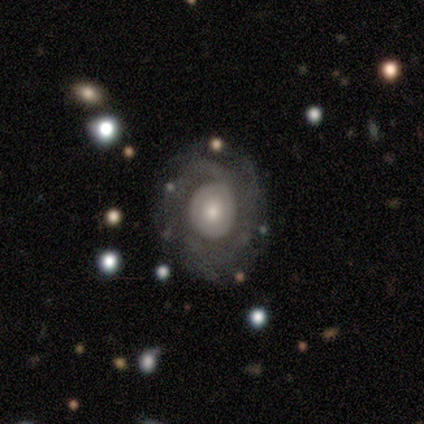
featured or disk 60%, smooth 40%, star or artifact 0%. Down the decision tree: edge-on disk — no (100%); bar — no (100%); spiral arms — yes (67%); spiral arm count — 2 (50%, tied with more than 4); spiral winding — medium (100%); bulge size — large (67%); merging — none (60%).